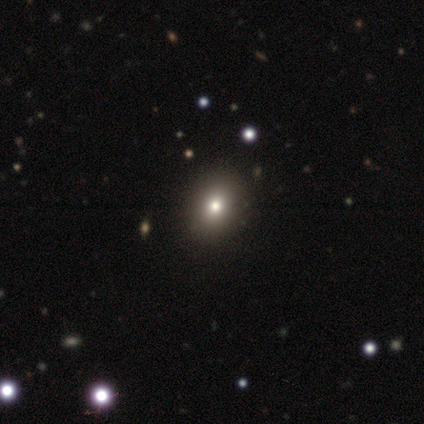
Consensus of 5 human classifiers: A smooth galaxy with no disk features (60%) that is round (67%). Merging: none (100%).